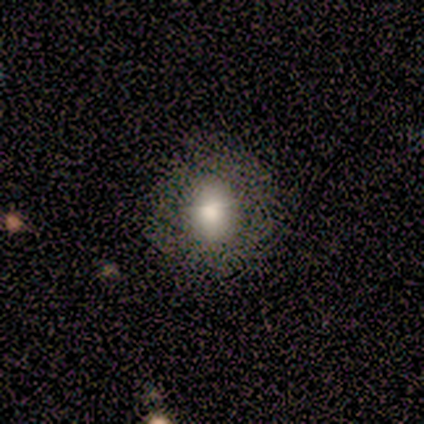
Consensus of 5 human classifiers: A smooth galaxy with no disk features (100%) that is round (100%). Merging: none (100%).